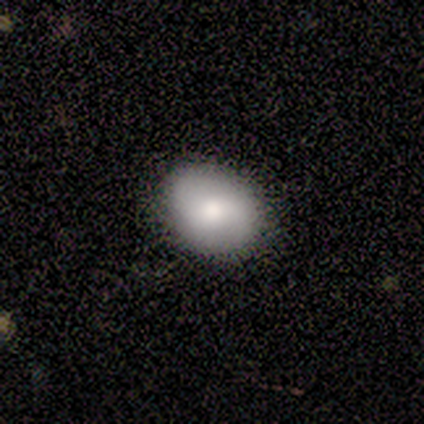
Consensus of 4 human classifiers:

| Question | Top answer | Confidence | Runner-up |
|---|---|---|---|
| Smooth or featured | featured or disk | 75% | smooth (25%) |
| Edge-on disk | no | 100% | — |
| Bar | weak | 100% | — |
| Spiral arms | yes | 67% | no (33%) |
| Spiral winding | loose | 100% | — |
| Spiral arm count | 2 | 50% | tied: can't tell (50%) |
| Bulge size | moderate | 100% | — |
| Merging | none | 100% | — |